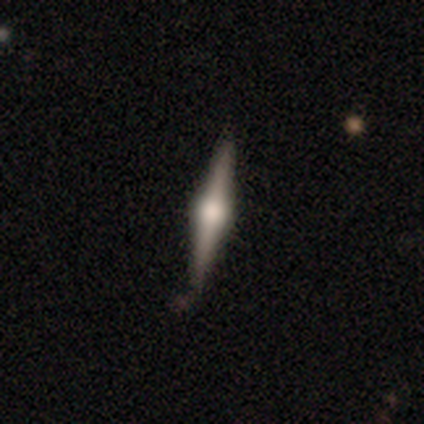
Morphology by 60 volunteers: A featured or disk galaxy (85%) viewed edge-on (98%) with a rounded central bulge (94%). Merging: none (82%).